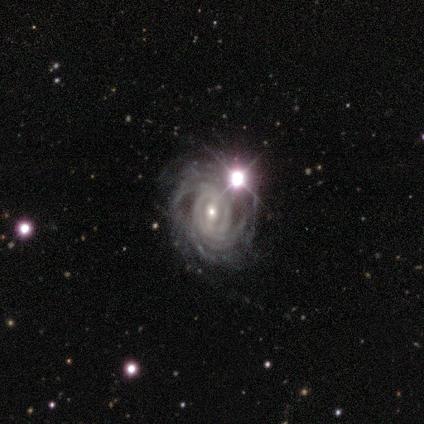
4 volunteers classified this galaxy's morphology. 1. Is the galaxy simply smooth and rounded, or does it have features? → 75% featured or disk, 25% star or artifact, 0% smooth.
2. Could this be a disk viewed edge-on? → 100% no, 0% yes.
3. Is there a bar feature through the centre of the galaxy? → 67% strong, 33% no, 0% weak.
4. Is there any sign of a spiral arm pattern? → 100% yes, 0% no.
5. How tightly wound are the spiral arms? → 33% tight (tied), 33% medium (tied), 33% loose (tied).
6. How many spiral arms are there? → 33% 2 (tied), 33% 4 (tied), 33% more than 4 (tied), 0% 1, 0% 3, 0% can't tell.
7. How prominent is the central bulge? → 67% small, 33% dominant, 0% large, 0% moderate, 0% none.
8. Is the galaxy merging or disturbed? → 67% none, 33% minor disturbance, 0% major disturbance, 0% merger.